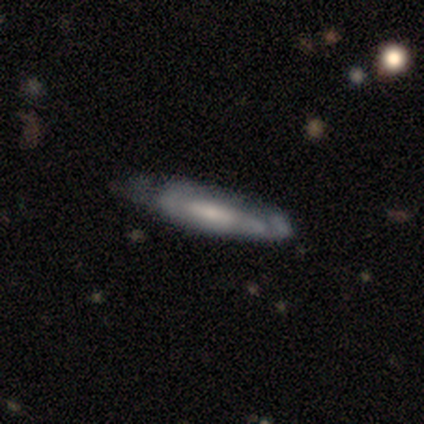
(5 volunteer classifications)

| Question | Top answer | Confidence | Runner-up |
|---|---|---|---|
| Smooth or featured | featured or disk | 60% | smooth (40%) |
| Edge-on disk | yes | 67% | no (33%) |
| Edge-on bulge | none | 100% | — |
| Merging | minor disturbance | 60% | none (40%) |